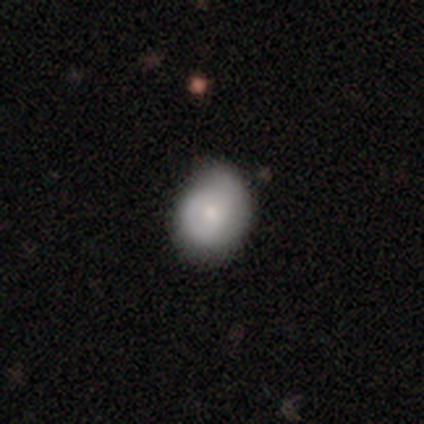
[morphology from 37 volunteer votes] Q: Smooth or featured?
A: smooth (70%); runner-up: featured or disk (22%)
Q: How rounded?
A: round (62%); runner-up: in between (38%)
Q: Merging?
A: minor disturbance (62%); runner-up: none (26%)